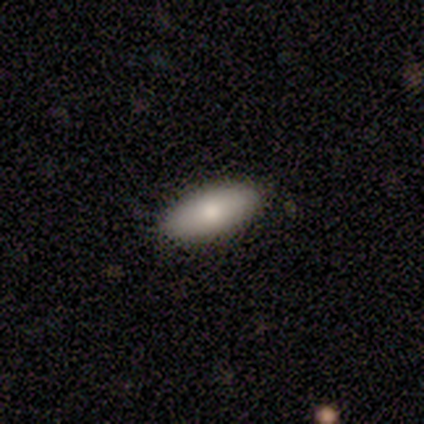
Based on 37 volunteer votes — smooth_or_featured: smooth (p=0.76) [alt: featured or disk p=0.16]
how_rounded: in between (p=0.96) [alt: cigar-shaped p=0.04]
merging: none (p=0.88) [alt: minor disturbance p=0.12]